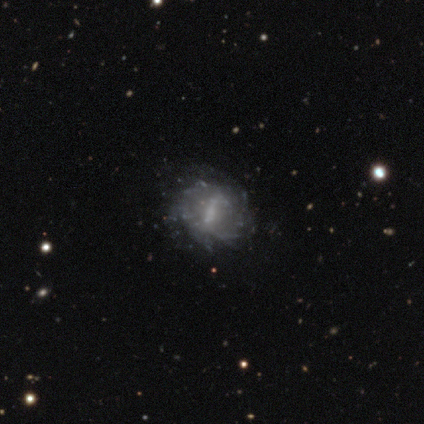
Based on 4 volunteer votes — Morphology: type=star or artifact (50%).